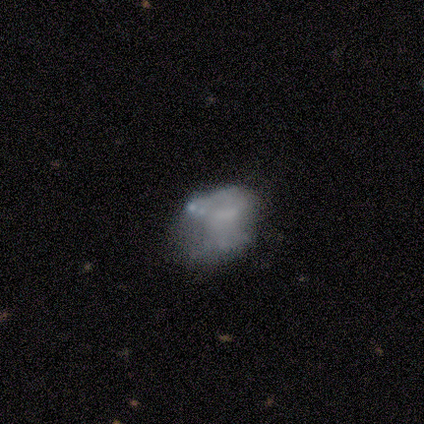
Smooth or featured?
  - smooth: 60% *
  - featured or disk: 40%
  - star or artifact: 0%
How rounded?
  - in between: 100% *
  - round: 0%
  - cigar-shaped: 0%
Merging?
  - none: 40% *
  - minor disturbance: 20%
  - major disturbance: 20%
  - merger: 20%